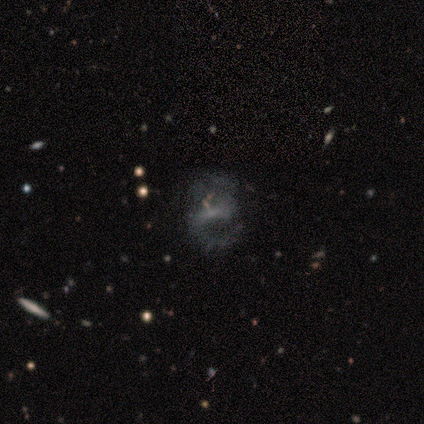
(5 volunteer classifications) Smooth or featured? featured or disk (60%)
Edge-on disk? no (100%)
Bar? weak (67%)
Spiral arms? yes (100%)
Spiral winding? medium (100%)
Spiral arm count? 2 (100%)
Bulge size? small (100%)
Merging? none (75%)